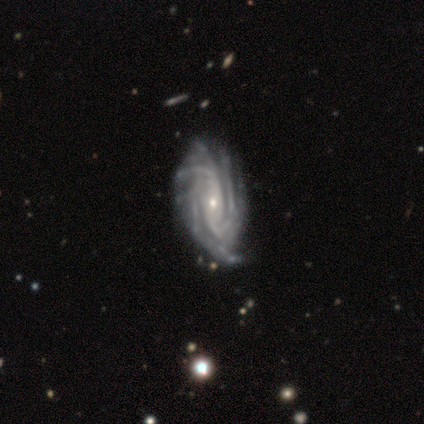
Smooth or featured?
  - featured or disk: 83% *
  - smooth: 17%
  - star or artifact: 0%
Edge-on disk?
  - no: 100% *
  - yes: 0%
Bar?
  - no: 40% *
  - strong: 30%
  - weak: 30%
Spiral arms?
  - yes: 100% *
  - no: 0%
Spiral winding?
  - tight: 50% *
  - medium: 40%
  - loose: 10%
Spiral arm count?
  - 3: 40% *
  - can't tell: 30%
  - 4: 20%
  - more than 4: 10%
  - 1: 0%
  - 2: 0%
Bulge size?
  - small: 80% *
  - moderate: 20%
  - dominant: 0%
  - large: 0%
  - none: 0%
Merging?
  - none: 58% *
  - minor disturbance: 25%
  - major disturbance: 17%
  - merger: 0%